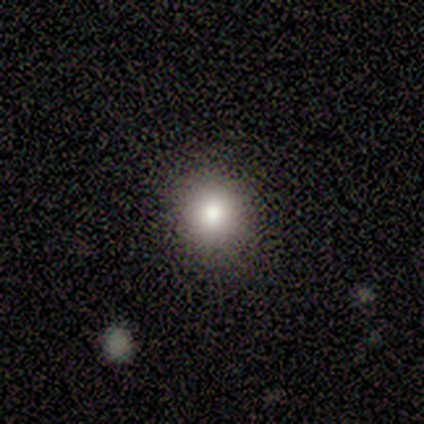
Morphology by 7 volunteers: Q: Smooth or featured?
A: smooth (86%); runner-up: star or artifact (14%)
Q: How rounded?
A: round (100%)
Q: Merging?
A: none (83%); runner-up: minor disturbance (17%)